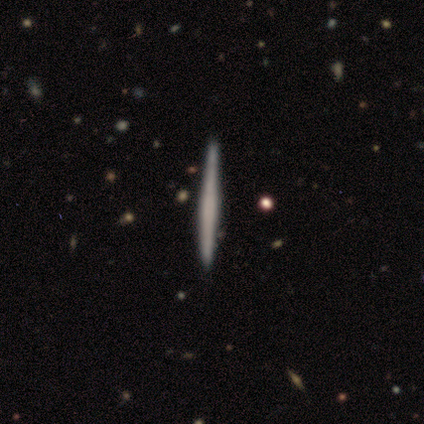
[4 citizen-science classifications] This appears to be a smooth galaxy with no disk features (75%) that is cigar-shaped (100%). Merging: none (100%).